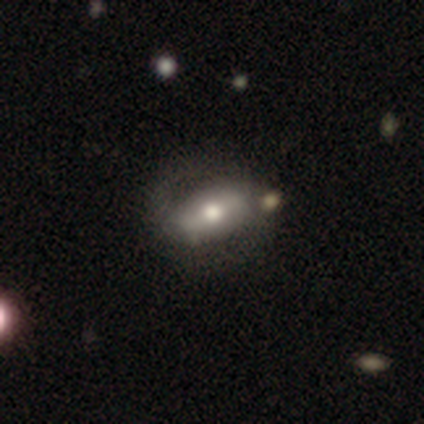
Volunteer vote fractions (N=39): Q: Smooth or featured?
A: featured or disk (54%); runner-up: smooth (44%)
Q: Edge-on disk?
A: no (81%); runner-up: yes (19%)
Q: Bar?
A: strong (47%); runner-up: weak (29%)
Q: Spiral arms?
A: no (53%); runner-up: yes (47%)
Q: Bulge size?
A: moderate (53%); runner-up: small (29%)
Q: Merging?
A: none (61%); runner-up: minor disturbance (24%)